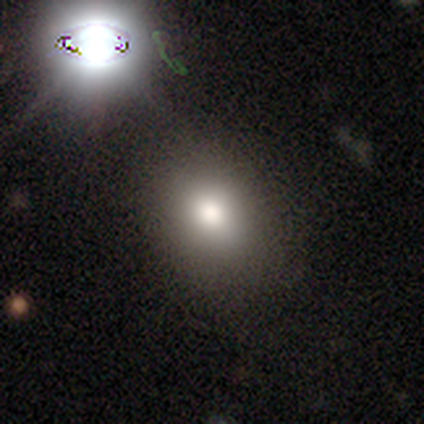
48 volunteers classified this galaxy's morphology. Q: Smooth or featured?
A: smooth (79%); runner-up: star or artifact (12%)
Q: How rounded?
A: round (55%); runner-up: in between (45%)
Q: Merging?
A: none (83%); runner-up: major disturbance (7%)